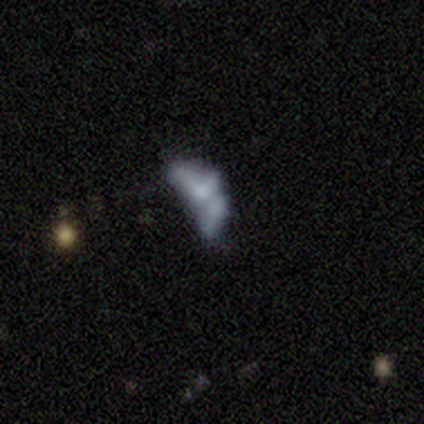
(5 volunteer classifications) smooth_or_featured: smooth (p=0.60) [alt: featured or disk p=0.40]
how_rounded: in between (p=1.00)
merging: none (p=0.40) [tied with: major disturbance p=0.40]